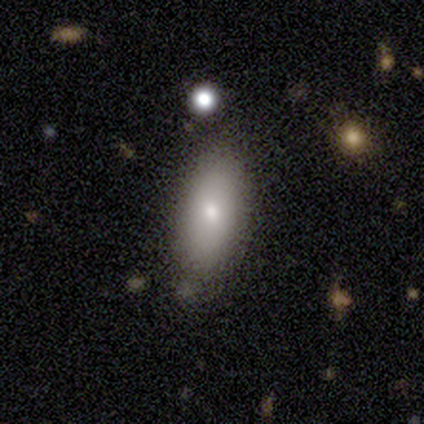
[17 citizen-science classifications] Q: Smooth or featured?
A: smooth (94%); runner-up: featured or disk (6%)
Q: How rounded?
A: in between (88%); runner-up: cigar-shaped (12%)
Q: Merging?
A: none (82%); runner-up: minor disturbance (18%)